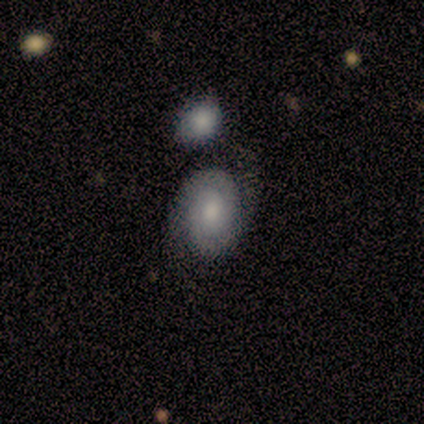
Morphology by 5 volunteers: featured or disk 80%, smooth 20%, star or artifact 0%. Down the decision tree: edge-on disk — no (100%); bar — no (100%); spiral arms — yes (100%); spiral arm count — 2 (100%); spiral winding — tight (75%); bulge size — small (75%); merging — none (80%).